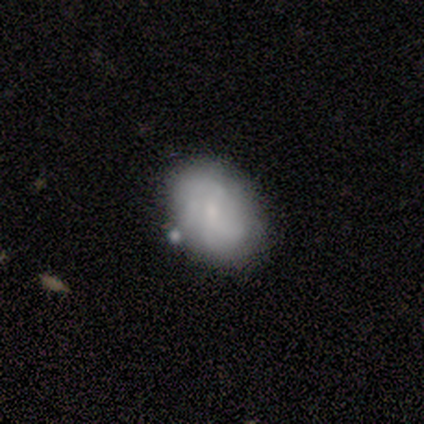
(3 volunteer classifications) This is likely a smooth galaxy (67%). How rounded: clearly in between (100%). Merging: likely none (67%).